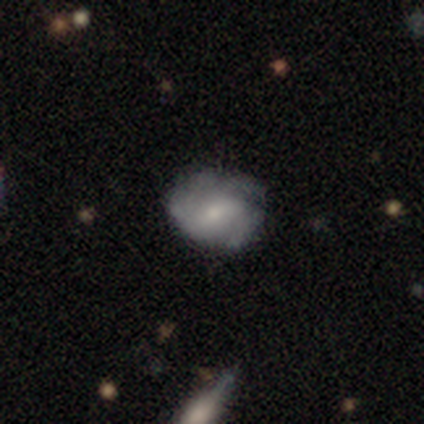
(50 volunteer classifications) Smooth or featured? 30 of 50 (60%) said featured or disk. Edge-on disk? 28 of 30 (93%) said no. Bar? 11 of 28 (39%, tied with no) said weak. Spiral arms? 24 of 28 (86%) said yes. Spiral winding? 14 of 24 (58%) said medium. Spiral arm count? 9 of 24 (38%) said 3. Bulge size? 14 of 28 (50%) said moderate. Merging? 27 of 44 (61%) said none.